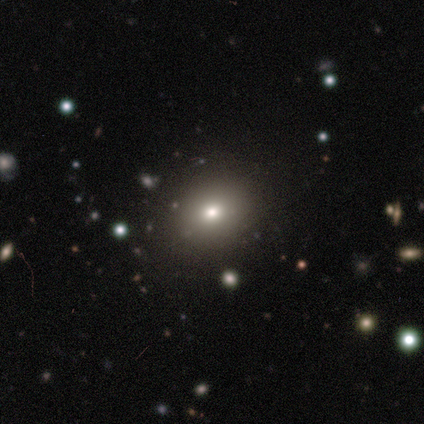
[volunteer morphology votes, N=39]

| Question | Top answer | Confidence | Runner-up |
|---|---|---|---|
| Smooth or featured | smooth | 74% | featured or disk (13%) |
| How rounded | round | 52% | in between (48%) |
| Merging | none | 65% | major disturbance (3%) |